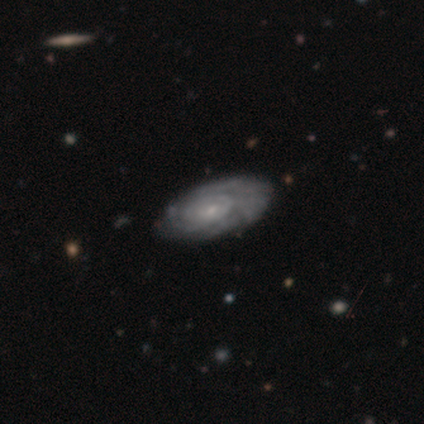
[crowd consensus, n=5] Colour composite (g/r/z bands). It shows a featured or disk galaxy (80%) with a weak bar (50%, tied with no), tight (67%) spiral arms (75%) and a small central bulge (75%). Merging: none (75%).